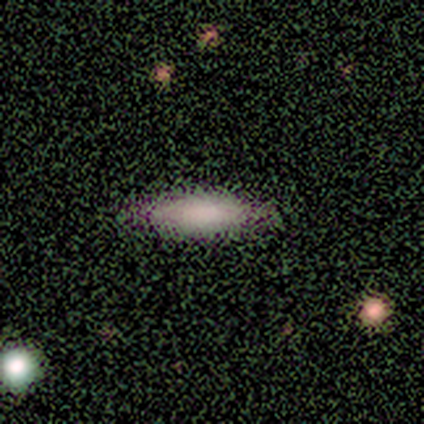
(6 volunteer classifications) Q: Smooth or featured?
A: smooth (83%); runner-up: featured or disk (17%)
Q: How rounded?
A: cigar-shaped (80%); runner-up: in between (20%)
Q: Merging?
A: none (83%); runner-up: minor disturbance (17%)